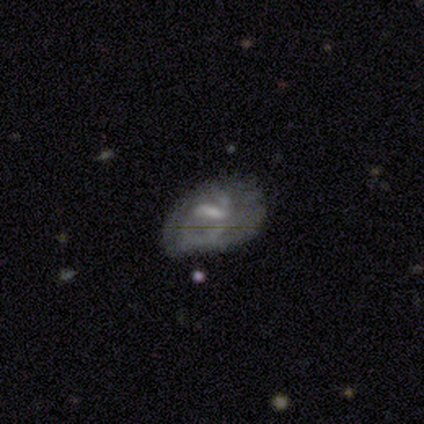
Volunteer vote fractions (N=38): Smooth or featured? 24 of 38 (63%) said featured or disk. Edge-on disk? 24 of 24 (100%) said no. Bar? 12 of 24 (50%) said weak. Spiral arms? 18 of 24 (75%) said no. Bulge size? 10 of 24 (42%) said none. Merging? 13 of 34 (38%) said none.